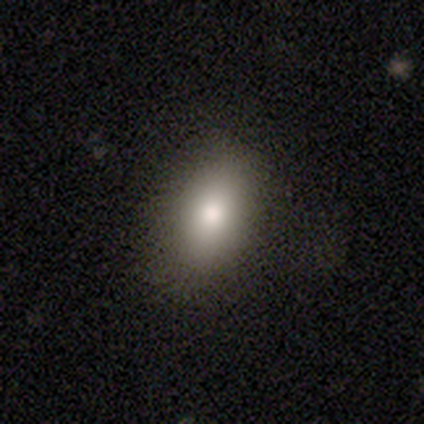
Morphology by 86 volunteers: Q: Smooth or featured?
A: smooth (84%); runner-up: featured or disk (8%)
Q: How rounded?
A: in between (92%); runner-up: round (6%)
Q: Merging?
A: none (85%); runner-up: minor disturbance (11%)